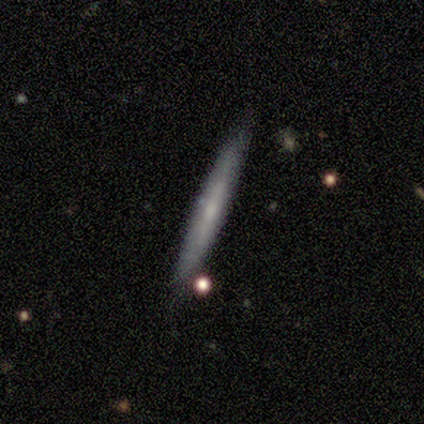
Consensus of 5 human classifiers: Morphology: type=featured or disk (60%); edge-on=yes (100%); edge-on bulge=none (67%); merging=none (80%).